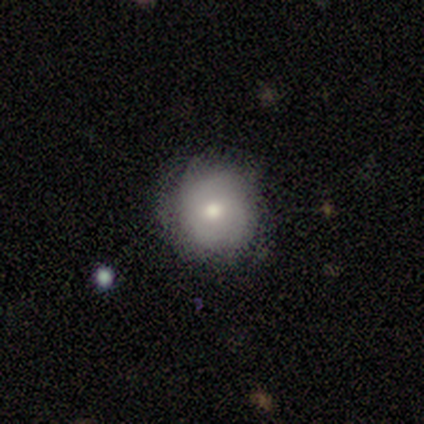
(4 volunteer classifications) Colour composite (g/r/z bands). It shows a smooth galaxy with no disk features (75%) that is round (67%). Merging: none (75%).